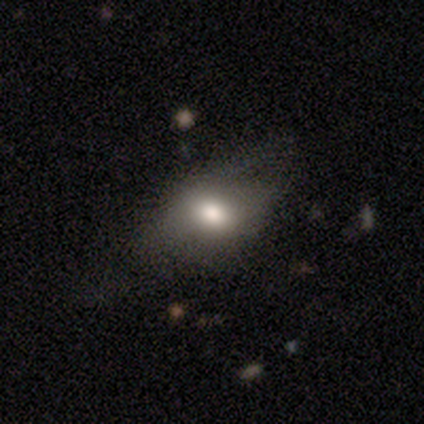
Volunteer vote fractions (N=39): Q: Smooth or featured?
A: smooth (62%); runner-up: featured or disk (36%)
Q: How rounded?
A: in between (79%); runner-up: round (17%)
Q: Merging?
A: minor disturbance (47%); runner-up: none (39%)